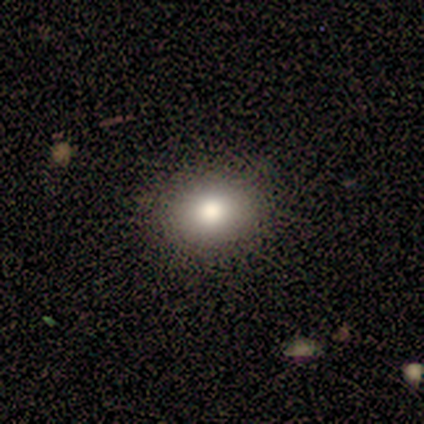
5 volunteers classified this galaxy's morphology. Smooth or featured: smooth — 100%
How rounded: round — 80% (in between — 20%)
Merging: none — 100%